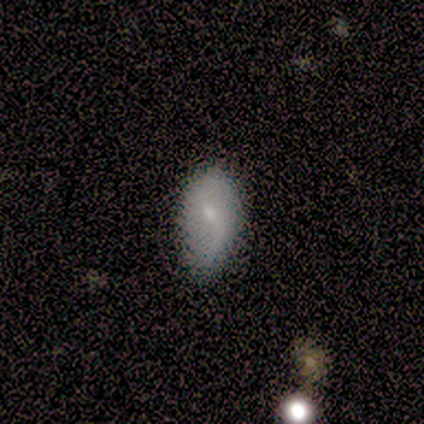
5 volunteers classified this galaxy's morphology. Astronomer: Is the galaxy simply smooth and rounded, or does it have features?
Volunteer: smooth — 80%.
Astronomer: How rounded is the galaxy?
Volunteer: in between — 100%.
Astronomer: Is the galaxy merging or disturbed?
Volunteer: minor disturbance — 60% (runner-up: none, 40%).